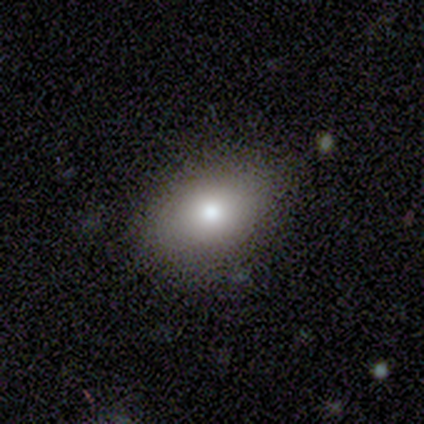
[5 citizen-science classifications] smooth-or-featured: smooth: 60% | featured or disk: 40% | star or artifact: 0%
  how-rounded: in between: 67% | round: 33% | cigar-shaped: 0%
  merging: none: 100% | minor disturbance: 0% | major disturbance: 0% | merger: 0%